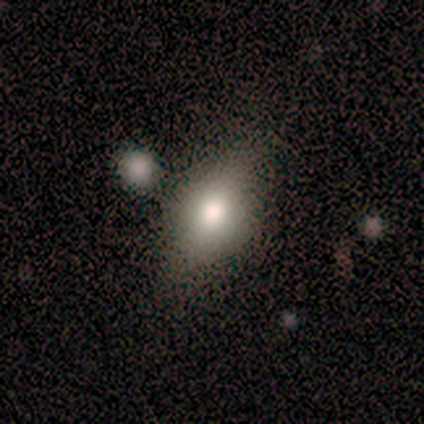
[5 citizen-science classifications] Q: Smooth or featured?
A: smooth (80%); runner-up: featured or disk (20%)
Q: How rounded?
A: in between (75%); runner-up: round (25%)
Q: Merging?
A: minor disturbance (60%); runner-up: none (40%)